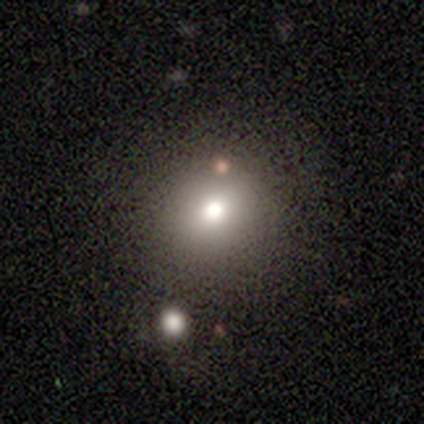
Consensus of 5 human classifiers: A smooth galaxy with no disk features (80%) that is round (100%). Merging: none (50%).